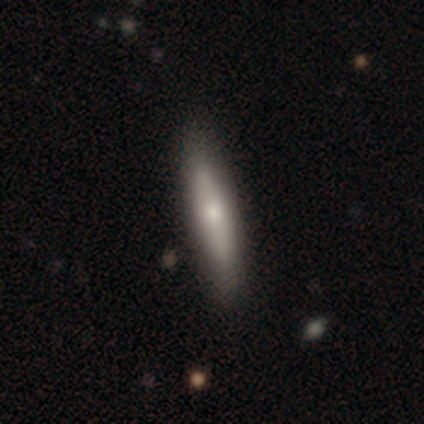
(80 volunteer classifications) Smooth or featured? 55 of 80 (69%) said smooth. How rounded? 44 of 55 (80%) said cigar-shaped. Merging? 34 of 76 (45%) said none.